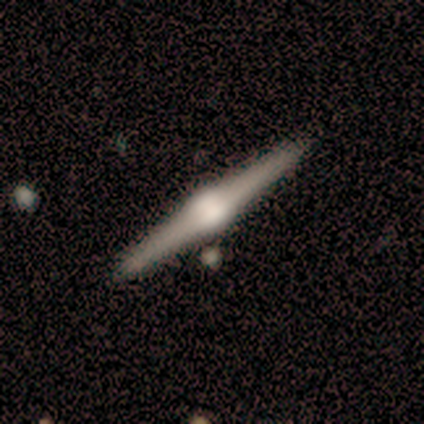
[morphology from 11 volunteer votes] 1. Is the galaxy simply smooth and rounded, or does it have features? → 100% featured or disk, 0% smooth, 0% star or artifact.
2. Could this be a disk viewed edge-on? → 100% yes, 0% no.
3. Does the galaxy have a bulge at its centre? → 100% rounded, 0% boxy, 0% none.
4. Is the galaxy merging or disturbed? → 91% none, 9% minor disturbance, 0% major disturbance, 0% merger.